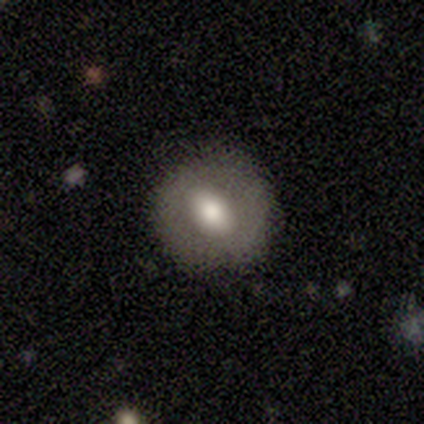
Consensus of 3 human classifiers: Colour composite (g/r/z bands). It shows a smooth galaxy with no disk features (100%) that is round (67%). Merging: none (100%).